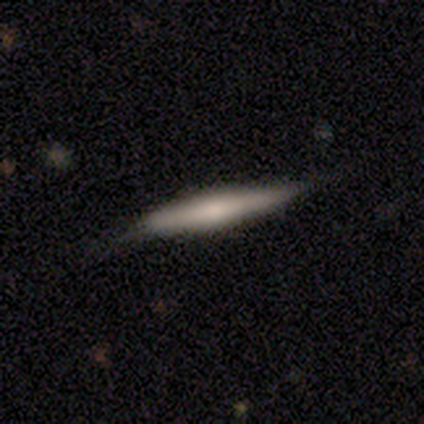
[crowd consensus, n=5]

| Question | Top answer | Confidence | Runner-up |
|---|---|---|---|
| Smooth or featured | featured or disk | 60% | smooth (40%) |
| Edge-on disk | yes | 100% | — |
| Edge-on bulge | none | 67% | boxy (33%) |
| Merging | none | 80% | minor disturbance (20%) |